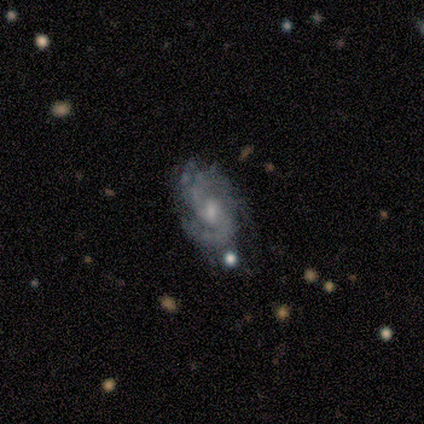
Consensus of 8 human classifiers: Smooth or featured?
  - featured or disk: 100% *
  - smooth: 0%
  - star or artifact: 0%
Edge-on disk?
  - no: 75% *
  - yes: 25%
Bar?
  - weak: 50% * (tied)
  - no: 50% * (tied)
  - strong: 0%
Spiral arms?
  - yes: 100% *
  - no: 0%
Spiral winding?
  - medium: 67% *
  - tight: 33%
  - loose: 0%
Spiral arm count?
  - 2: 50% *
  - can't tell: 33%
  - 1: 17%
  - 3: 0%
  - 4: 0%
  - more than 4: 0%
Bulge size?
  - small: 50% *
  - moderate: 33%
  - none: 17%
  - dominant: 0%
  - large: 0%
Merging?
  - none: 75% *
  - major disturbance: 12%
  - merger: 12%
  - minor disturbance: 0%